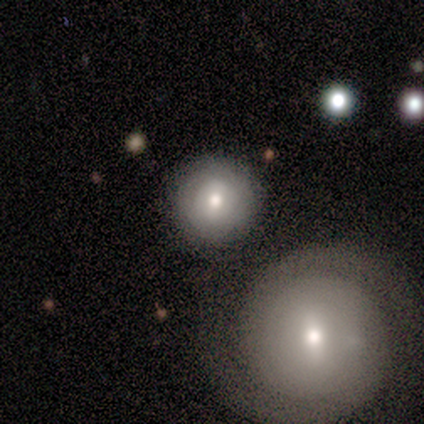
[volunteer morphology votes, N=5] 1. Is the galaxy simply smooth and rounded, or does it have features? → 60% smooth, 20% featured or disk, 20% star or artifact.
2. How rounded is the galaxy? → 100% round, 0% in between, 0% cigar-shaped.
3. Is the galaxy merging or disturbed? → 75% none, 25% minor disturbance, 0% major disturbance, 0% merger.